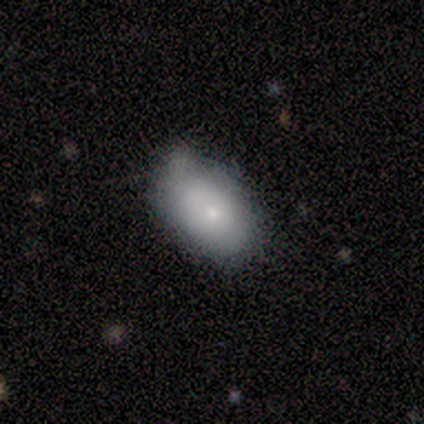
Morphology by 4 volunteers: smooth-or-featured: featured or disk: 75% | smooth: 25% | star or artifact: 0%
  disk-edge-on: no: 100% | yes: 0%
    bar: no: 100% | strong: 0% | weak: 0%
    has-spiral-arms: no: 67% | yes: 33%
    bulge-size: small: 100% | dominant: 0% | large: 0% | moderate: 0% | none: 0%
  merging: none: 50% (tied) | minor disturbance: 50% (tied) | major disturbance: 0% | merger: 0%